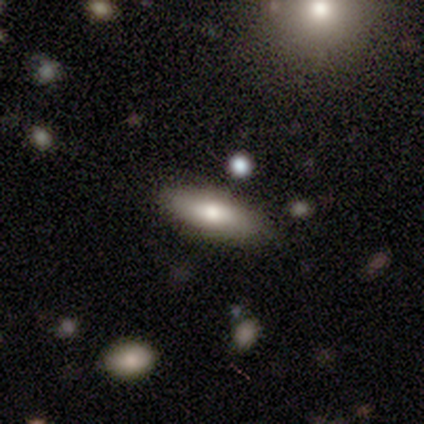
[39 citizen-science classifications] Smooth or featured?
  - smooth: 82% *
  - featured or disk: 10%
  - star or artifact: 8%
How rounded?
  - in between: 59% *
  - cigar-shaped: 41%
  - round: 0%
Merging?
  - none: 94% *
  - minor disturbance: 3%
  - major disturbance: 3%
  - merger: 0%